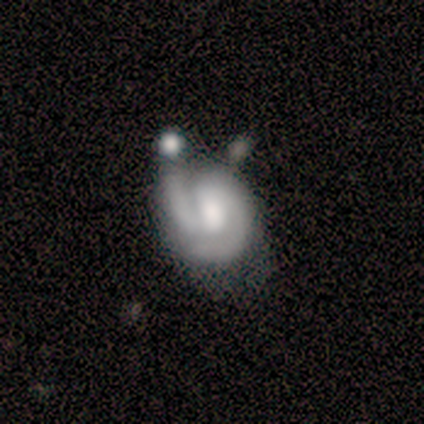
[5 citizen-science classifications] Smooth or featured: featured or disk — 100%
Edge-on disk: no — 100%
Bar: no — 60% (weak — 40%)
Spiral arms: yes — 100%
Spiral winding: tight — 100%
Spiral arm count: 2 — 60% (1 — 20%)
Bulge size: moderate — 60% (small — 40%)
Merging: none — 60% (minor disturbance — 20%)